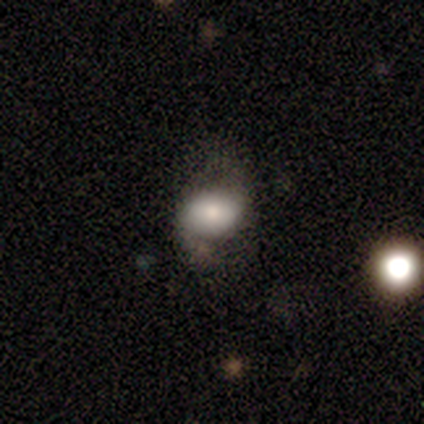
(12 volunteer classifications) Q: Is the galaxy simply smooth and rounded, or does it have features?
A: smooth — 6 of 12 (50%).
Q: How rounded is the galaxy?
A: in between — 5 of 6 (83%).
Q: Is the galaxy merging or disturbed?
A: none — 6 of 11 (55%).